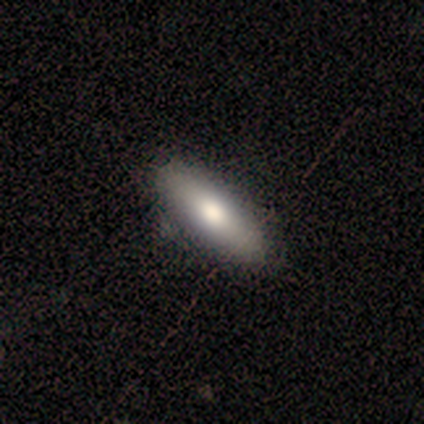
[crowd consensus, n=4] Smooth or featured? smooth (100%)
How rounded? in between (50%, tied with cigar-shaped)
Merging? none (75%)